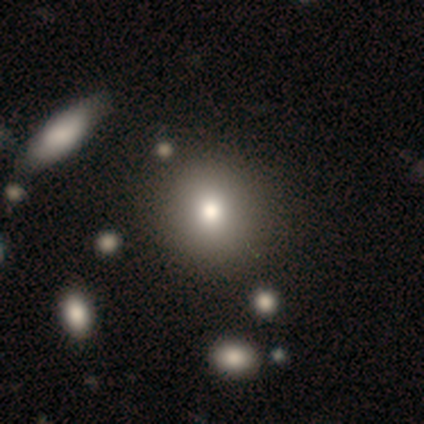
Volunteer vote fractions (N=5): Q: Smooth or featured?
A: smooth (60%); runner-up: star or artifact (40%)
Q: How rounded?
A: round (67%); runner-up: in between (33%)
Q: Merging?
A: minor disturbance (67%); runner-up: none (33%)